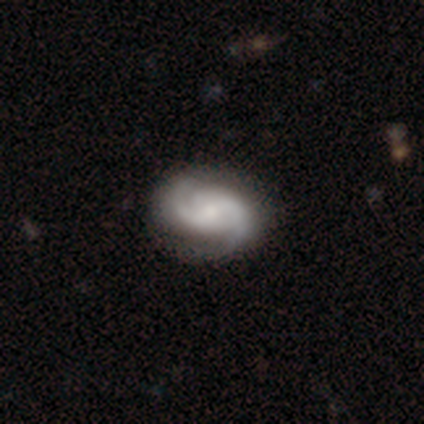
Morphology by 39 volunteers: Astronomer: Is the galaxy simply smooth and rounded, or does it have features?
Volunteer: featured or disk — 87%.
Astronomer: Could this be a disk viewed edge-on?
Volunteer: no — 100%.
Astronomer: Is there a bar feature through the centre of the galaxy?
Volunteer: no — 53% (runner-up: weak, 38%).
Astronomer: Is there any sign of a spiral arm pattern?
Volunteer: yes — 97%.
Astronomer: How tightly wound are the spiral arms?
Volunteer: medium — 58% (runner-up: tight, 33%).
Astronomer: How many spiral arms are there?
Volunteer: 2 — 94%.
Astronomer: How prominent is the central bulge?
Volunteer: moderate — 47% (runner-up: small, 26%).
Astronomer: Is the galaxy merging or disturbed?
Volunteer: none — 62%.